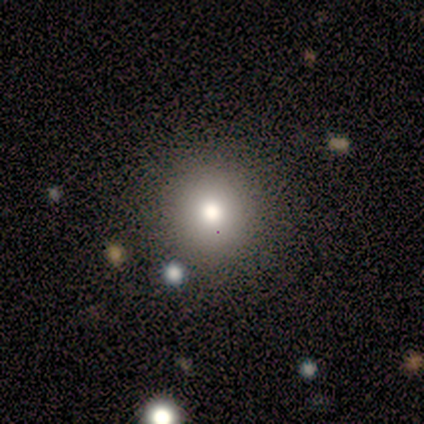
Smooth or featured: star or artifact — 67% (smooth — 33%)